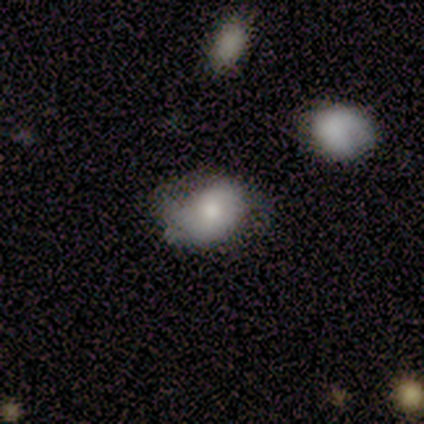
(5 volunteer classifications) Smooth or featured? 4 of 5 (80%) said smooth. How rounded? 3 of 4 (75%) said in between. Merging? 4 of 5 (80%) said none.